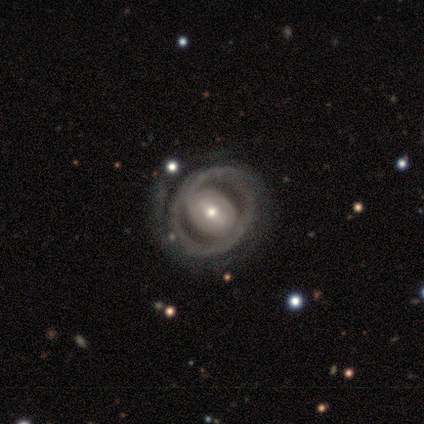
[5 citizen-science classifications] Smooth or featured? featured or disk (100%)
Edge-on disk? no (100%)
Bar? weak (40%, tied with no)
Spiral arms? no (60%)
Bulge size? moderate (60%)
Merging? none (80%)